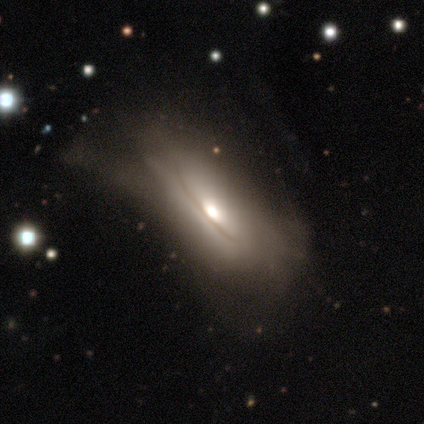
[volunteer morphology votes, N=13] Smooth or featured: smooth — 62% (featured or disk — 23%)
How rounded: in between — 100%
Merging: major disturbance — 36% (none — 27%)